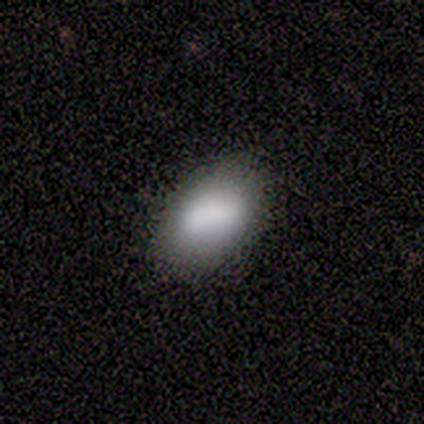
This appears to be a smooth galaxy with no disk features (100%) that is round (50%, tied with in between). Merging: none (100%).